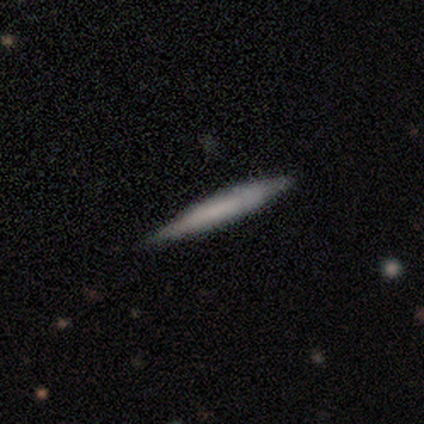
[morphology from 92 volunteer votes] smooth 58%, featured or disk 37%, star or artifact 5%. Down the decision tree: how rounded — cigar-shaped (100%); merging — none (85%).